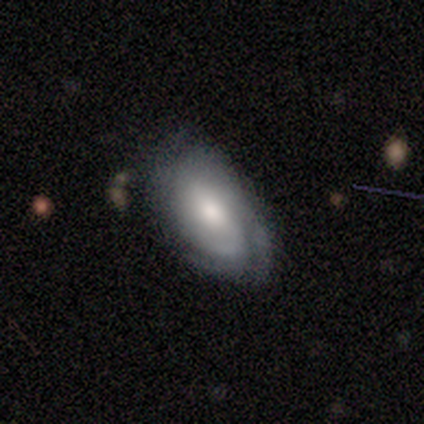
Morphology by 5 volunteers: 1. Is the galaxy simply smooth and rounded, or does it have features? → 60% featured or disk, 40% smooth, 0% star or artifact.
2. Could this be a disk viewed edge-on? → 100% no, 0% yes.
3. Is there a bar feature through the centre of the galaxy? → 67% weak, 33% no, 0% strong.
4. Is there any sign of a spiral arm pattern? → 100% yes, 0% no.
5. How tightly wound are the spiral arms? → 33% tight (tied), 33% medium (tied), 33% loose (tied).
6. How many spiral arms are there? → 67% can't tell, 33% 1, 0% 2, 0% 3, 0% 4, 0% more than 4.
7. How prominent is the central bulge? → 67% moderate, 33% large, 0% dominant, 0% small, 0% none.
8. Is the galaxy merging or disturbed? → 40% none (tied), 40% major disturbance (tied), 20% minor disturbance, 0% merger.